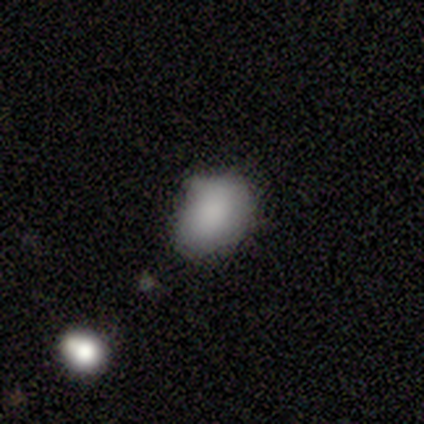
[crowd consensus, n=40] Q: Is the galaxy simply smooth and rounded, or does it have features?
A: smooth — 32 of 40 (80%).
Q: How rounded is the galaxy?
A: in between — 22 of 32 (69%).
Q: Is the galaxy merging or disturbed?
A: none — 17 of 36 (47%).